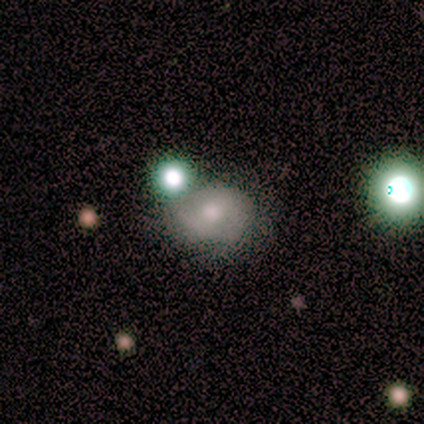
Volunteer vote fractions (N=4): Overall: smooth (50%, tied with featured or disk). How rounded: round (100%). Merging: none (75%).